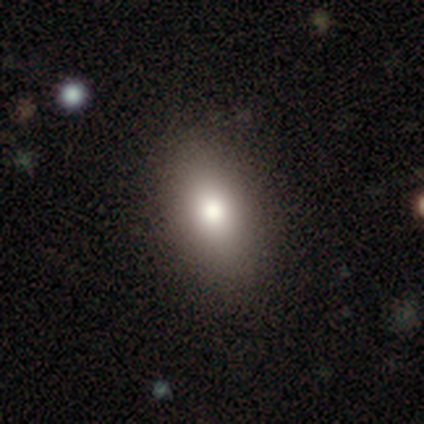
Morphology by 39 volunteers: This appears to be a smooth galaxy with no disk features (74%) that is in between round and cigar-shaped (97%). Merging: none (91%).